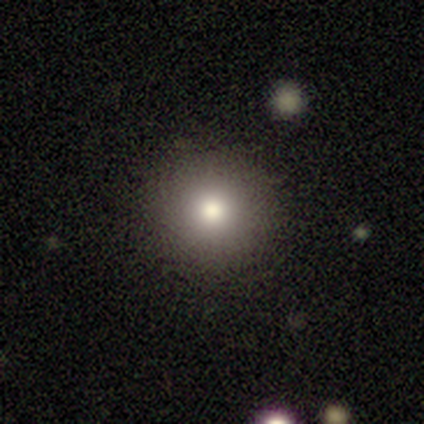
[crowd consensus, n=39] This appears to be a smooth galaxy with no disk features (79%) that is round (97%). Merging: none (91%).